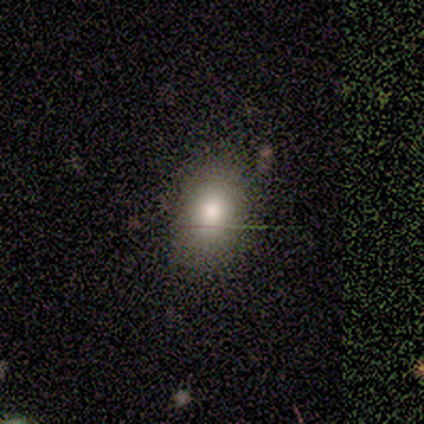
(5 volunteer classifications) smooth-or-featured: smooth: 80% | featured or disk: 20% | star or artifact: 0%
  how-rounded: in between: 100% | round: 0% | cigar-shaped: 0%
  merging: none: 80% | minor disturbance: 20% | major disturbance: 0% | merger: 0%